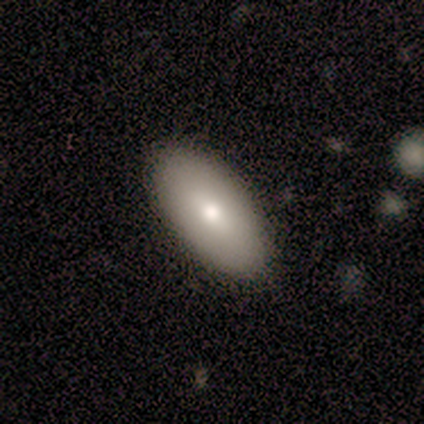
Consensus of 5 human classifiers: Volunteers were most divided on "merging": none: 80%, minor disturbance: 20%, major disturbance: 0%, merger: 0%. More confident: smooth or featured — smooth (100%); how rounded — in between (100%).